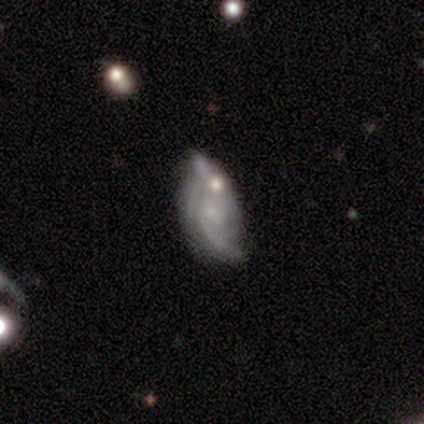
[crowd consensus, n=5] A featured or disk galaxy (100%) with no bar (60%), 2 (67%) medium (67%) spiral arms (60%) and a moderate central bulge (40%, tied with small). Merging: none (40%, tied with merger).